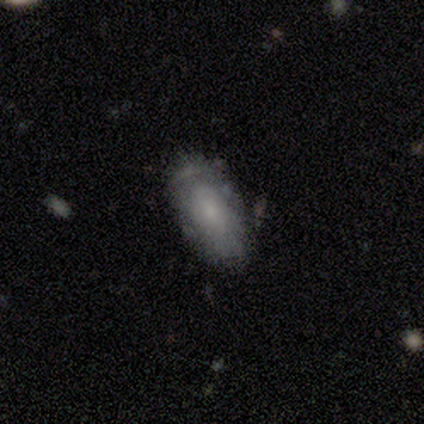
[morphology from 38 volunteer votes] Smooth or featured: featured or disk — 50% (smooth — 47%)
Edge-on disk: no — 89% (yes — 11%)
Bar: no — 82% (weak — 18%)
Spiral arms: no — 65% (yes — 35%)
Bulge size: small — 59% (none — 24%)
Merging: none — 70% (minor disturbance — 22%)